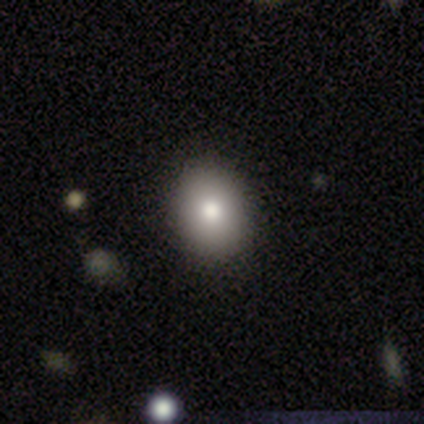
Overall: smooth (60%; featured or disk 20%). How rounded: in between (100%). Merging: none (100%).